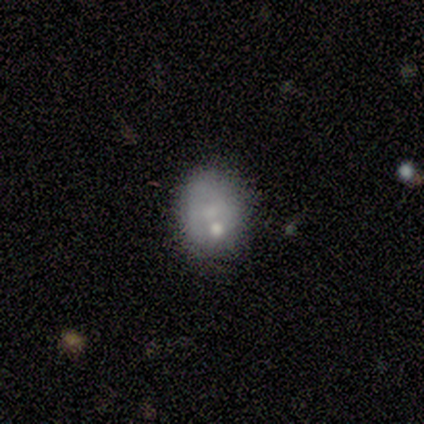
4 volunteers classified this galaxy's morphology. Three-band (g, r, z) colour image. It shows a smooth galaxy with no disk features (50%, tied with featured or disk) that is round (100%). Merging: none (75%).